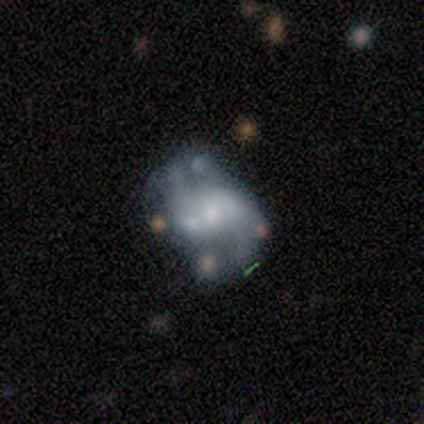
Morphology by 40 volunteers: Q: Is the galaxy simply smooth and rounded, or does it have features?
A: featured or disk — 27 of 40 (68%).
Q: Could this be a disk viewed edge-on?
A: no — 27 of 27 (100%).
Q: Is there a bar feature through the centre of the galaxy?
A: no — 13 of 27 (48%).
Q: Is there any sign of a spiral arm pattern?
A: yes — 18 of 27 (67%).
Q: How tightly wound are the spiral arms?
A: loose — 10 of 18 (56%).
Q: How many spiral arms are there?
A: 2 — 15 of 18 (83%).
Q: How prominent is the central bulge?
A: small — 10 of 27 (37%).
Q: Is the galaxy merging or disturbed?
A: none — 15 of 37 (41%, tied with minor disturbance).